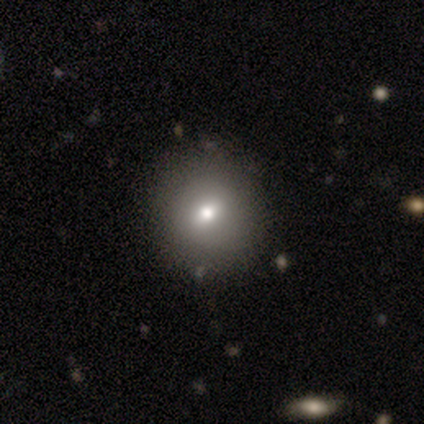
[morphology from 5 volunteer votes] smooth_or_featured: smooth (p=0.80) [alt: star or artifact p=0.20]
how_rounded: round (p=1.00)
merging: none (p=1.00)